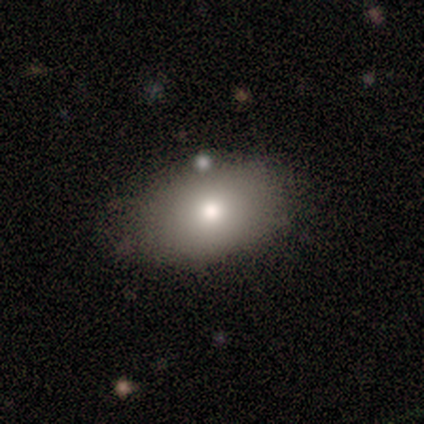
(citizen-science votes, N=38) smooth 74%, featured or disk 21%, star or artifact 5%. Down the decision tree: how rounded — in between (93%); merging — none (86%).